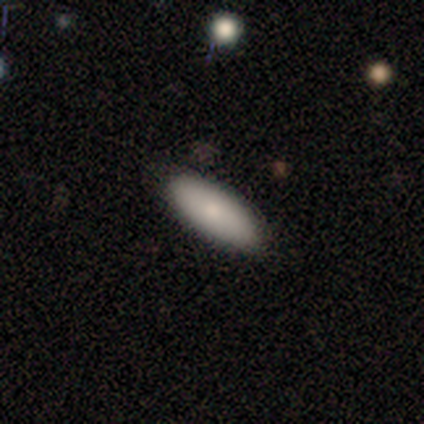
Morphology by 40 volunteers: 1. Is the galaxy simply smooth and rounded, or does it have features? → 88% smooth, 10% featured or disk, 2% star or artifact.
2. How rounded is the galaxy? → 63% in between, 34% cigar-shaped, 3% round.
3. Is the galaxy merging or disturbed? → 85% none, 10% minor disturbance, 3% major disturbance, 3% merger.